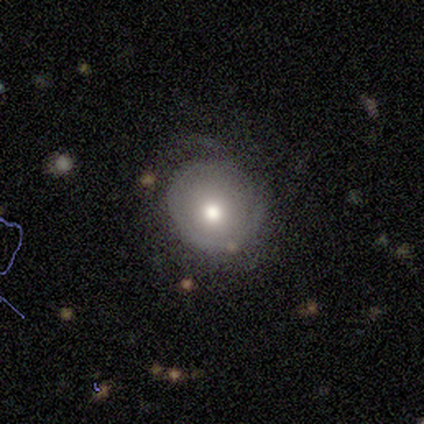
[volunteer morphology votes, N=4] Smooth or featured: featured or disk — 75% (smooth — 25%)
Edge-on disk: no — 67% (yes — 33%)
Bar: weak — 50% (tied with no — 50%)
Spiral arms: yes — 50% (tied with no — 50%)
Spiral winding: loose — 100%
Spiral arm count: 2 — 100%
Bulge size: moderate — 100%
Merging: major disturbance — 75% (minor disturbance — 25%)